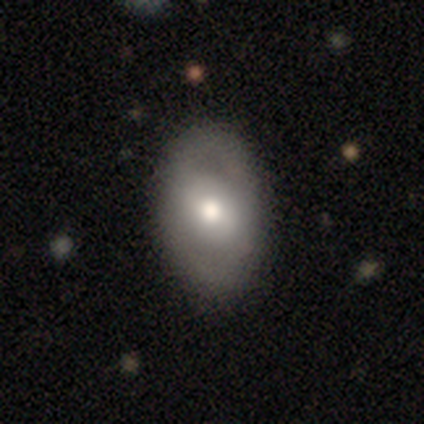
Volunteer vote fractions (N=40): This is possibly a featured or disk galaxy (57%). It is clearly not viewed edge-on (91%). Bar: marginally strong (38%, tied with no). Spiral arm pattern: likely no (67%). Central bulge: likely moderate (62%). Merging: possibly none (50%).